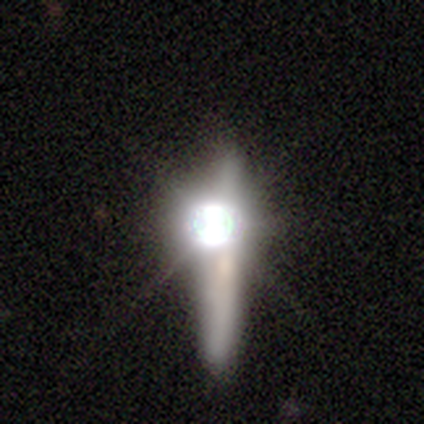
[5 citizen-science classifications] Smooth or featured: smooth — 60% (star or artifact — 40%)
How rounded: cigar-shaped — 100%
Merging: none — 67% (major disturbance — 33%)